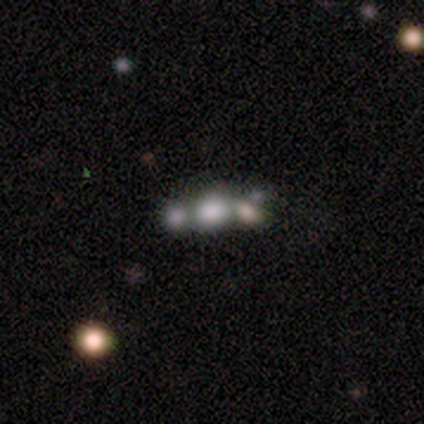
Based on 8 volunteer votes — A smooth galaxy with no disk features (50%) that is in between round and cigar-shaped (50%).

Vote fractions:
- Smooth or featured? smooth: 50% / featured or disk: 38% / star or artifact: 12%
- How rounded? in between: 50% / round: 25% / cigar-shaped: 25%
- Merging? merger: 57% / none: 43% / minor disturbance: 0% / major disturbance: 0%